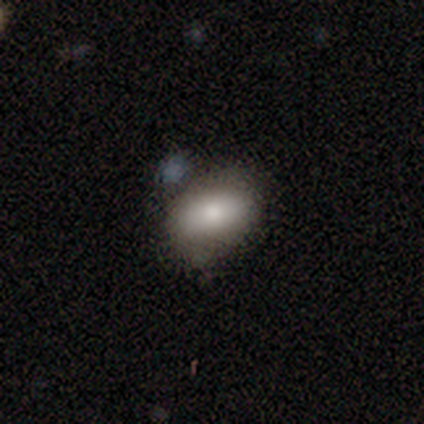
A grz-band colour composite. It shows a smooth galaxy with no disk features (60%) that is in between round and cigar-shaped (100%). Merging: none (100%).